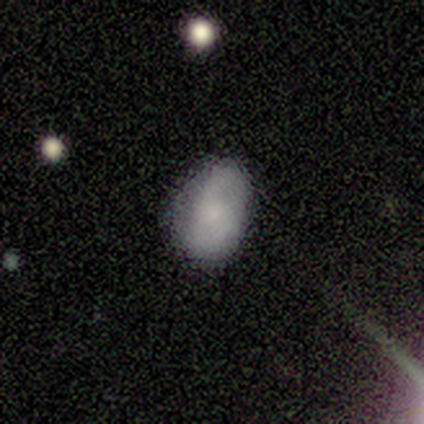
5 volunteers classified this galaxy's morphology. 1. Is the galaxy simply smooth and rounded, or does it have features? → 60% featured or disk, 40% smooth, 0% star or artifact.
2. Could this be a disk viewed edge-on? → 100% no, 0% yes.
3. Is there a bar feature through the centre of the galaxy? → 67% weak, 33% no, 0% strong.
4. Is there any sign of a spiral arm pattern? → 100% yes, 0% no.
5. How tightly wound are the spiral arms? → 67% loose, 33% medium, 0% tight.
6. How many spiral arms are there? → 100% 2, 0% 1, 0% 3, 0% 4, 0% more than 4, 0% can't tell.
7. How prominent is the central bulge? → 67% small, 33% none, 0% dominant, 0% large, 0% moderate.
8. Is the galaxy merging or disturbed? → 80% none, 20% minor disturbance, 0% major disturbance, 0% merger.